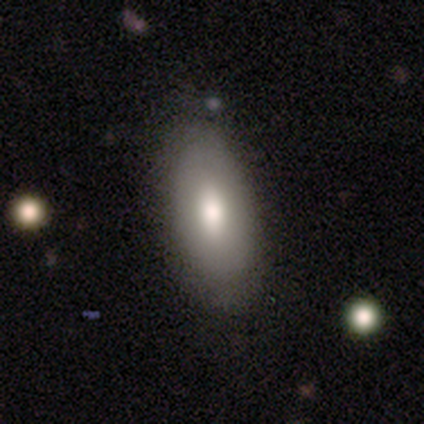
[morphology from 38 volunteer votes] smooth-or-featured: smooth: 71% | featured or disk: 26% | star or artifact: 3%
  how-rounded: in between: 96% | cigar-shaped: 4% | round: 0%
  merging: none: 49% | minor disturbance: 8% | major disturbance: 5% | merger: 0%